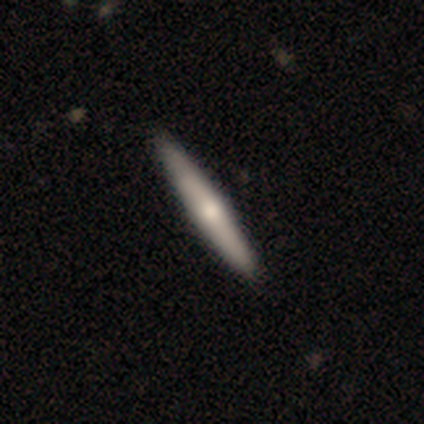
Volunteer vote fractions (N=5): Overall: smooth (80%). How rounded: cigar-shaped (100%). Merging: none (100%).